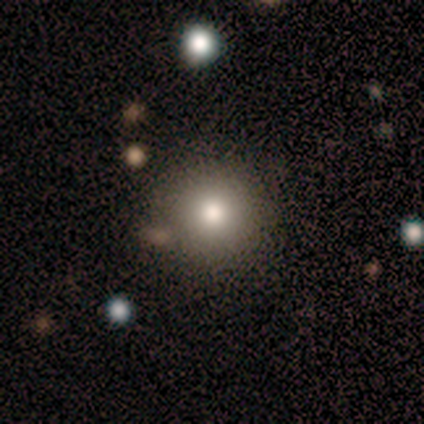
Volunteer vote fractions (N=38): This appears to be a smooth galaxy with no disk features (76%) that is round (100%). Merging: none (91%).